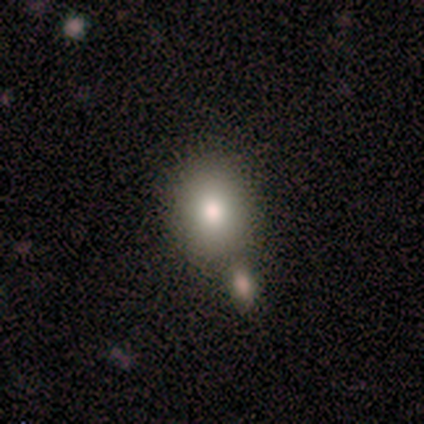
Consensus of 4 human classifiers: Smooth or featured?
  - smooth: 100% *
  - featured or disk: 0%
  - star or artifact: 0%
How rounded?
  - round: 50% * (tied)
  - in between: 50% * (tied)
  - cigar-shaped: 0%
Merging?
  - none: 50% * (tied)
  - merger: 50% * (tied)
  - minor disturbance: 0%
  - major disturbance: 0%